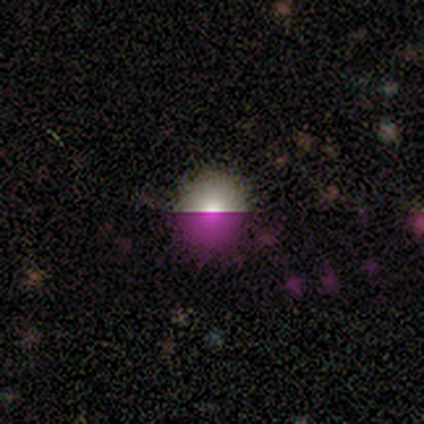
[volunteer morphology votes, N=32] Smooth or featured? 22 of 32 (69%) said smooth. How rounded? 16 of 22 (73%) said round. Merging? 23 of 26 (88%) said none.